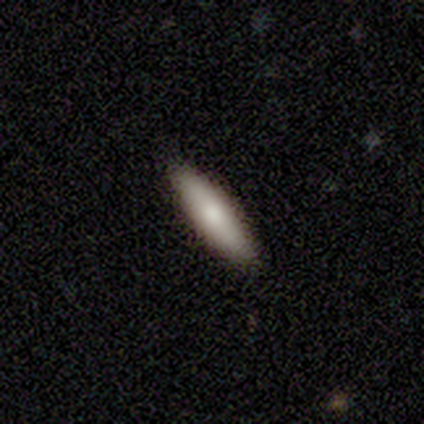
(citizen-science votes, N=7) Smooth or featured? 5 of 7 (71%) said smooth. How rounded? 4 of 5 (80%) said in between. Merging? 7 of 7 (100%) said none.